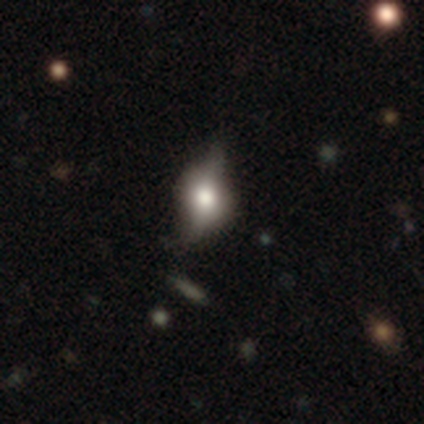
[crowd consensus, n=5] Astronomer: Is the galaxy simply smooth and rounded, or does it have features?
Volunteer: featured or disk — 60%.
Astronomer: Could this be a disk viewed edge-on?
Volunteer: yes — 67%.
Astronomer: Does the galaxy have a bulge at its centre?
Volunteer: rounded — 100%.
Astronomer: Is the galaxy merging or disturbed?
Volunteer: none — 75%.